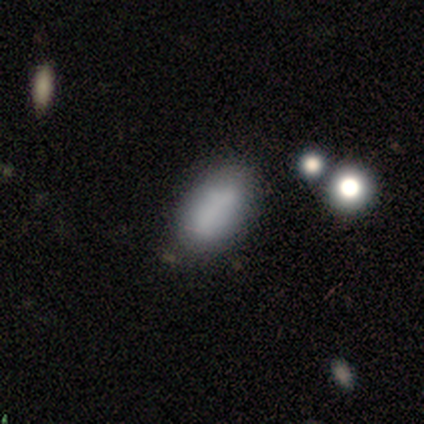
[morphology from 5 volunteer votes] Smooth or featured: smooth — 60% (featured or disk — 40%)
How rounded: in between — 100%
Merging: none — 60% (minor disturbance — 20%)